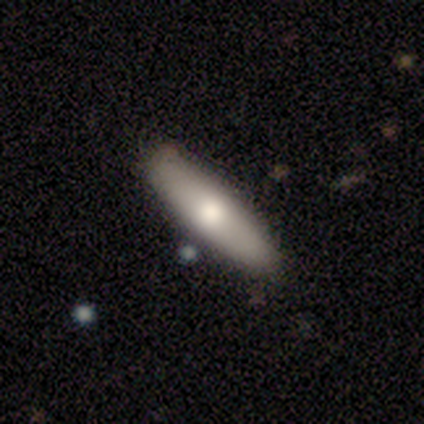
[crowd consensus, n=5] This is clearly a smooth galaxy (80%). How rounded: possibly in between (50%, tied with cigar-shaped). Merging: clearly none (100%).